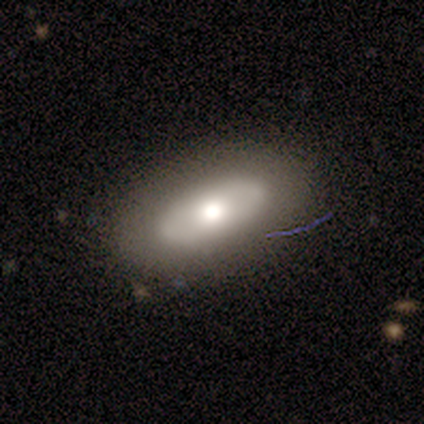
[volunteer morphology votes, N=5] Overall: featured or disk (60%; smooth 40%). Edge-on disk: no (67%; yes 33%). Bar: weak (50%, tied with no). Spiral arms: no (100%). Bulge size: large (50%, tied with moderate). Merging: none (60%; minor disturbance 20%).